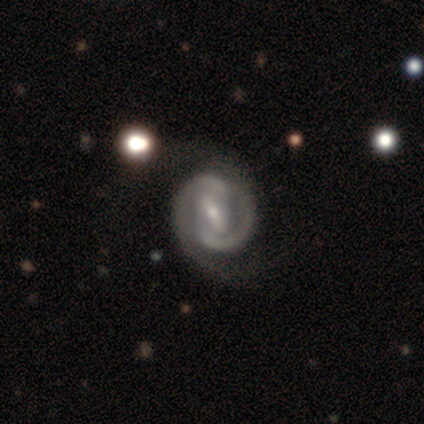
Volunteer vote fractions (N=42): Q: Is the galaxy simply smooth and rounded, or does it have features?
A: featured or disk — 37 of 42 (88%).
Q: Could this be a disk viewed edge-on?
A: no — 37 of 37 (100%).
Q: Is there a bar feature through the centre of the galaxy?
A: strong — 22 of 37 (59%).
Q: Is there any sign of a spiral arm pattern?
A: yes — 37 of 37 (100%).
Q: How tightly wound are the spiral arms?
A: tight — 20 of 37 (54%).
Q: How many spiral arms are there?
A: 2 — 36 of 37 (97%).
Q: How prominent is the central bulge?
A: small — 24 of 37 (65%).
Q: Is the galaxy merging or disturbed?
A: none — 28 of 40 (70%).